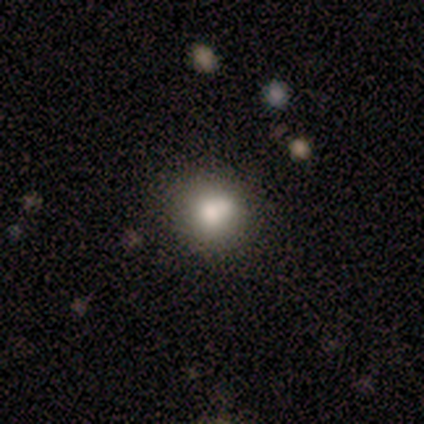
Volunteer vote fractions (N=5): A smooth galaxy with no disk features (80%) that is round (75%).

Vote fractions:
- Smooth or featured? smooth: 80% / featured or disk: 20% / star or artifact: 0%
- How rounded? round: 75% / in between: 25% / cigar-shaped: 0%
- Merging? none: 60% / minor disturbance: 40% / major disturbance: 0% / merger: 0%